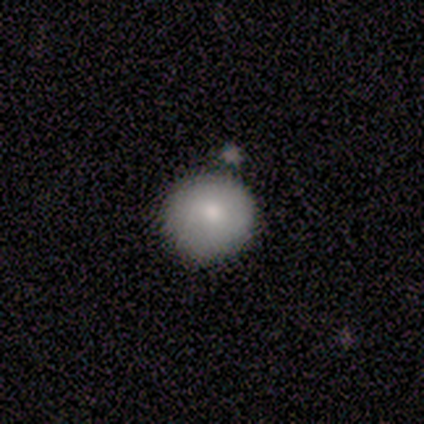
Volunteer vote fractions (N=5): Volunteers were most divided on "merging": none: 80%, merger: 20%, minor disturbance: 0%, major disturbance: 0%. More confident: smooth or featured — smooth (100%); how rounded — round (100%).